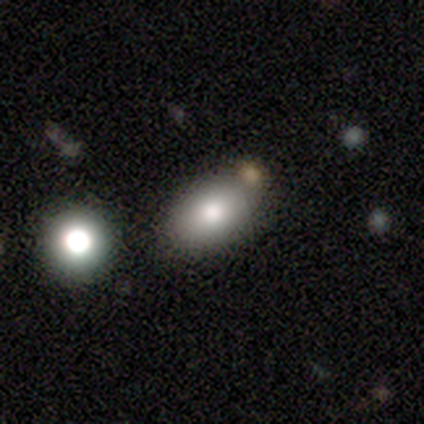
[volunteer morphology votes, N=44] A smooth galaxy with no disk features (82%) that is in between round and cigar-shaped (86%). Merging: none (71%).